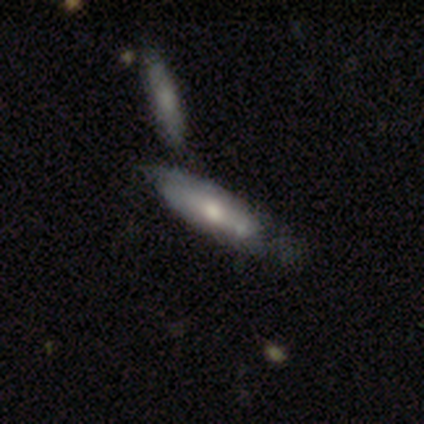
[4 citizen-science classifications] Morphology: type=smooth (75%); roundness=in between (67%); merging=none (50%, tied with minor disturbance).